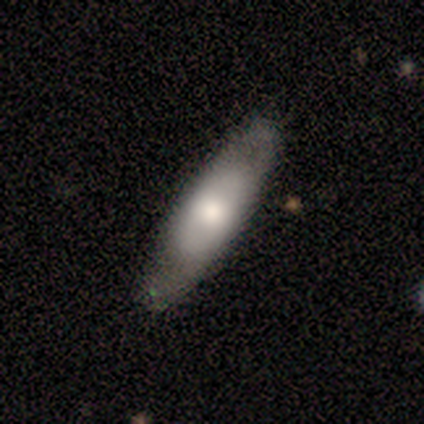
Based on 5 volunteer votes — Overall: featured or disk (80%). Edge-on disk: yes (50%, tied with no). Edge-on bulge: rounded (100%). Merging: none (80%).